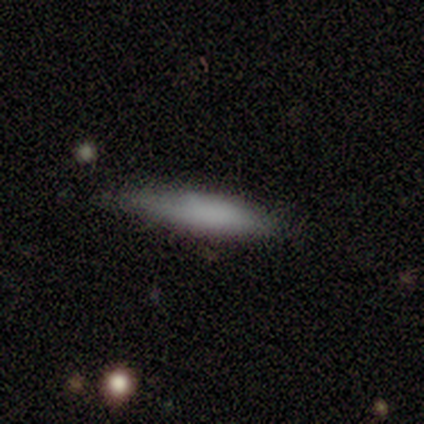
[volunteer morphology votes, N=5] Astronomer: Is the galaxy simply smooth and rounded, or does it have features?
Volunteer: smooth — 100%.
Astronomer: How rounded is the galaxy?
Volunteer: cigar-shaped — 80%.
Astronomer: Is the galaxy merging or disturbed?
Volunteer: none — 80%.